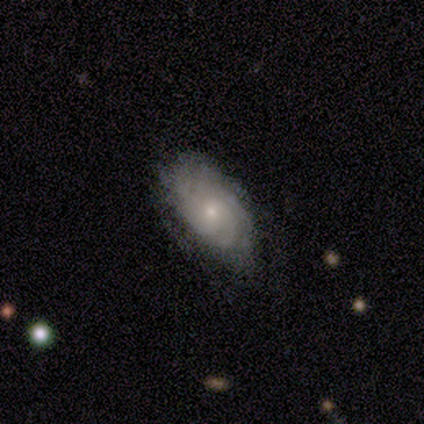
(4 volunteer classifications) Smooth or featured: featured or disk — 75% (smooth — 25%)
Edge-on disk: no — 100%
Bar: no — 67% (weak — 33%)
Spiral arms: yes — 67% (no — 33%)
Spiral winding: tight — 50% (tied with loose — 50%)
Spiral arm count: 4 — 50% (tied with can't tell — 50%)
Bulge size: small — 67% (moderate — 33%)
Merging: none — 75% (major disturbance — 25%)